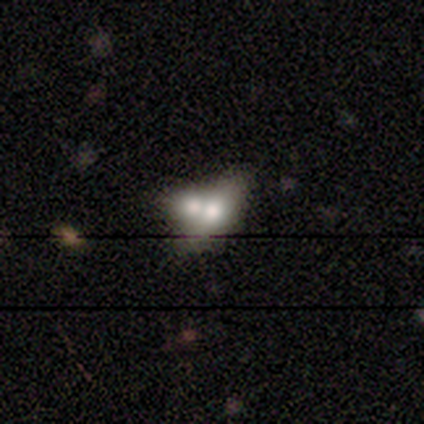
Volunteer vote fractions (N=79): Overall: smooth (66%; featured or disk 32%). How rounded: in between (81%). Merging: merger (78%).